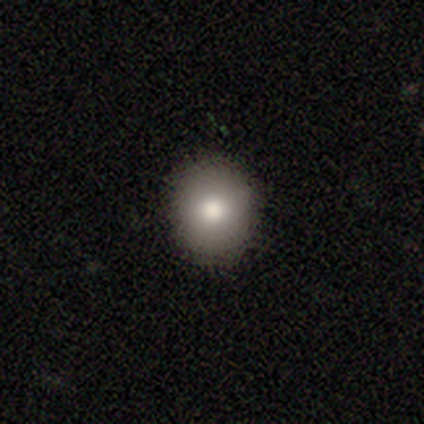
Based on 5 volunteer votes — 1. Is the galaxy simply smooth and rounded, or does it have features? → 80% smooth, 20% star or artifact, 0% featured or disk.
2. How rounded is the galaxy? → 50% round (tied), 50% in between (tied), 0% cigar-shaped.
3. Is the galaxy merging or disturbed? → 100% none, 0% minor disturbance, 0% major disturbance, 0% merger.